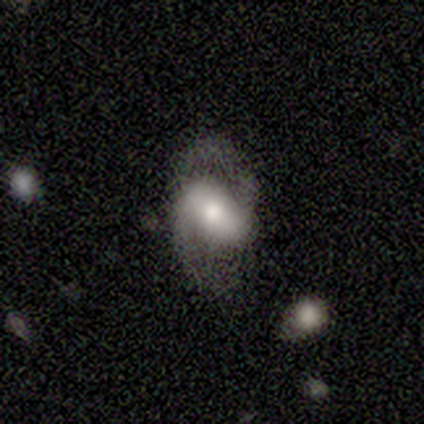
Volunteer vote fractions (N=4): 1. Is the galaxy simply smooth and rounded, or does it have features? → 75% featured or disk, 25% smooth, 0% star or artifact.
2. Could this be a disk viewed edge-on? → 100% no, 0% yes.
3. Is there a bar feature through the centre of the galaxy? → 100% no, 0% strong, 0% weak.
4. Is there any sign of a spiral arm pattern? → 67% yes, 33% no.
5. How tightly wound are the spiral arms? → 50% medium (tied), 50% loose (tied), 0% tight.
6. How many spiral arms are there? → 100% 2, 0% 1, 0% 3, 0% 4, 0% more than 4, 0% can't tell.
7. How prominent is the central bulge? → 67% moderate, 33% large, 0% dominant, 0% small, 0% none.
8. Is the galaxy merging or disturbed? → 50% none (tied), 50% minor disturbance (tied), 0% major disturbance, 0% merger.